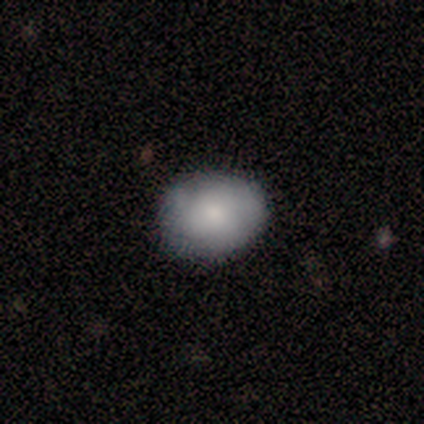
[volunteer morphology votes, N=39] Q: Smooth or featured?
A: smooth (77%); runner-up: featured or disk (21%)
Q: How rounded?
A: round (50%); tied with: in between (50%)
Q: Merging?
A: none (84%); runner-up: minor disturbance (8%)